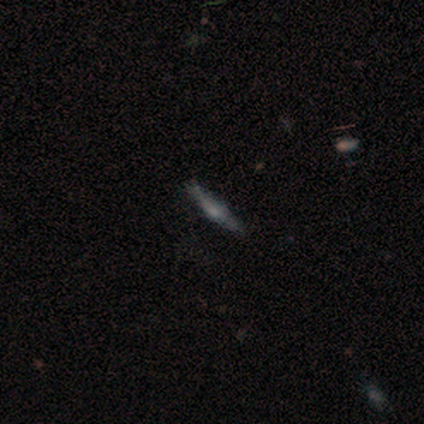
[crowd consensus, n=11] Morphology: type=featured or disk (73%); edge-on=yes (100%); edge-on bulge=rounded (50%); merging=none (90%).